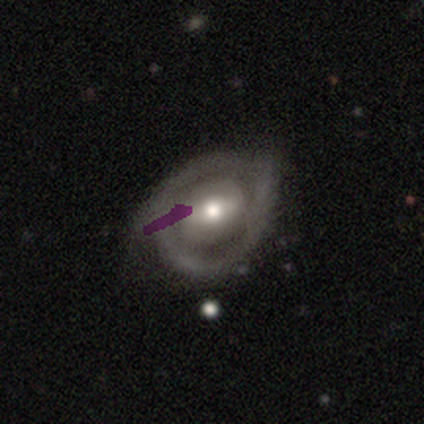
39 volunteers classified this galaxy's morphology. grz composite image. It shows a featured or disk galaxy (69%) with a weak bar (56%), 2 (71%) tight (50%) spiral arms (52%) and a moderate central bulge (70%). Merging: none (33%).